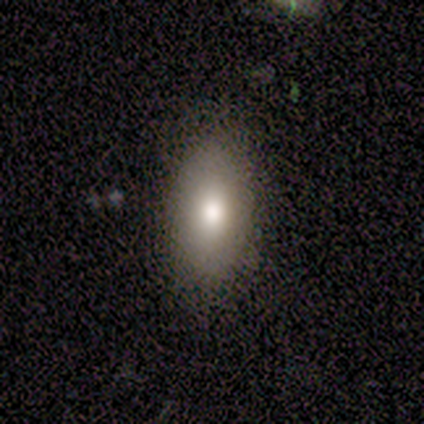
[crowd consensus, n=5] smooth 60%, star or artifact 40%, featured or disk 0%. Down the decision tree: how rounded — in between (100%); merging — none (100%).